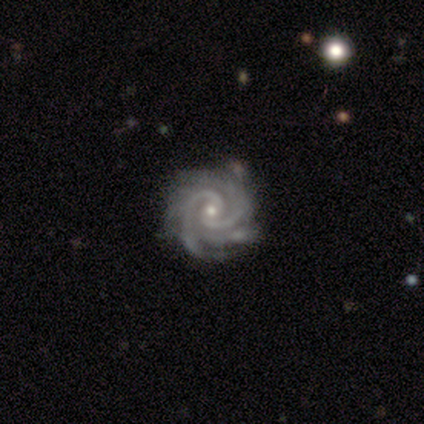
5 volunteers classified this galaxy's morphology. Overall: featured or disk (100%). Edge-on disk: no (100%). Bar: no (80%). Spiral arms: yes (100%). Spiral arm count: 2 (40%; 3 20%). Spiral winding: tight (100%). Bulge size: small (60%; moderate 40%). Merging: none (80%).